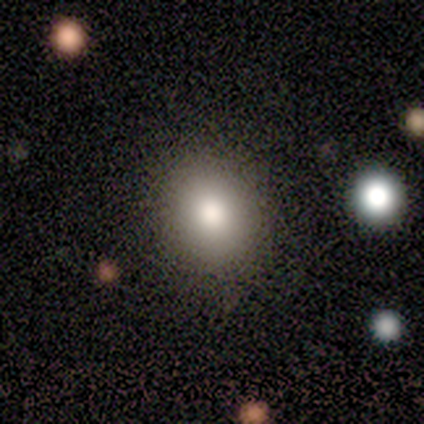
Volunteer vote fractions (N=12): smooth-or-featured: smooth: 75% | featured or disk: 17% | star or artifact: 8%
  how-rounded: in between: 56% | round: 44% | cigar-shaped: 0%
  merging: none: 82% | minor disturbance: 9% | major disturbance: 9% | merger: 0%